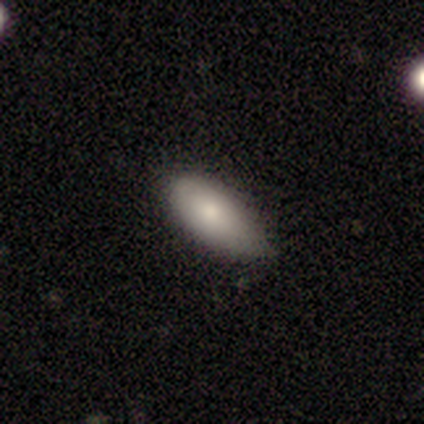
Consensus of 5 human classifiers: A smooth galaxy with no disk features (100%) that is in between round and cigar-shaped (100%). Merging: none (80%).